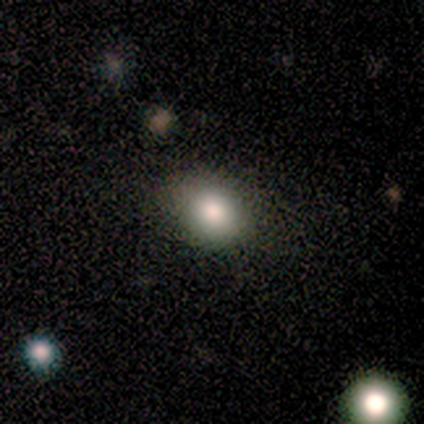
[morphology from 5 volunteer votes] A smooth galaxy with no disk features (100%) that is in between round and cigar-shaped (80%). Merging: none (80%).